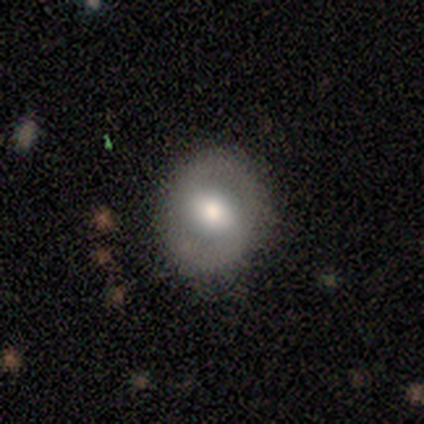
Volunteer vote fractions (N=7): Smooth or featured? 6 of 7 (86%) said featured or disk. Edge-on disk? 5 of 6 (83%) said no. Bar? 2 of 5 (40%, tied with no) said weak. Spiral arms? 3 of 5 (60%) said yes. Spiral winding? 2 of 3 (67%) said tight. Spiral arm count? 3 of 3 (100%) said 2. Bulge size? 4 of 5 (80%) said moderate. Merging? 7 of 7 (100%) said none.